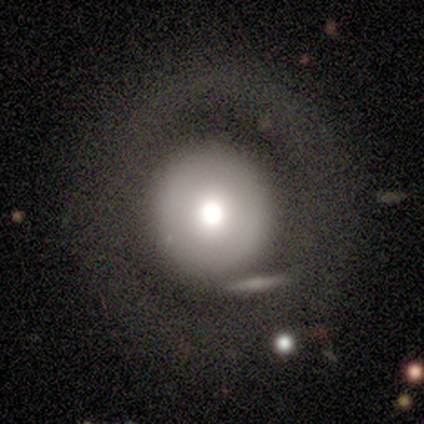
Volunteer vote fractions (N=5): This appears to be a featured or disk galaxy (40%, tied with star or artifact) with no bar (100%), no spiral arms (100%) and a moderate central bulge (100%). Merging: none (67%).